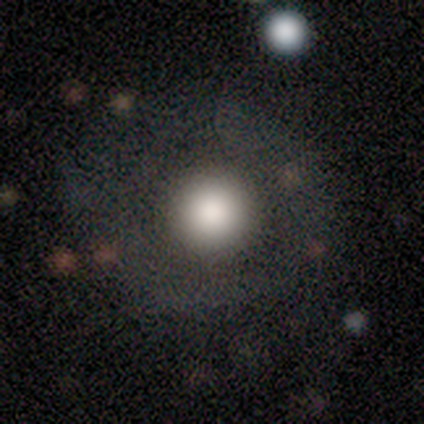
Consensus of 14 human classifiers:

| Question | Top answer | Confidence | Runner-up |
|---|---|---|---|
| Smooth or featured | smooth | 79% | featured or disk (21%) |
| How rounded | round | 100% | — |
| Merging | none | 93% | major disturbance (7%) |